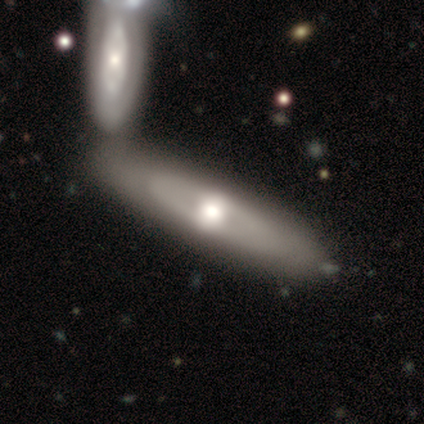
Q: Smooth or featured?
A: featured or disk (60%); runner-up: smooth (20%)
Q: Edge-on disk?
A: no (67%); runner-up: yes (33%)
Q: Bar?
A: strong (50%); tied with: no (50%)
Q: Spiral arms?
A: yes (50%); tied with: no (50%)
Q: Spiral winding?
A: tight (100%)
Q: Spiral arm count?
A: can't tell (100%)
Q: Bulge size?
A: large (50%); tied with: moderate (50%)
Q: Merging?
A: none (75%); runner-up: merger (25%)